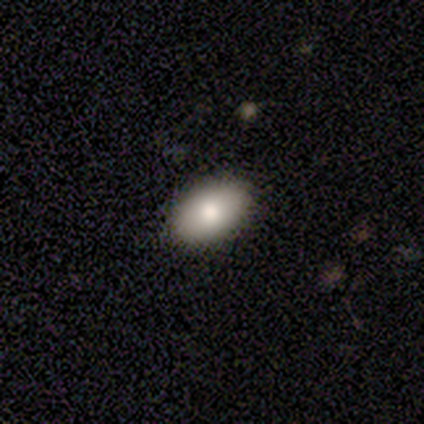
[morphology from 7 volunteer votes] type=smooth (86%); roundness=in between (83%); merging=none (100%).